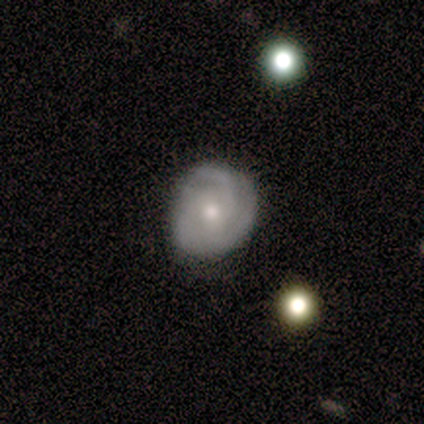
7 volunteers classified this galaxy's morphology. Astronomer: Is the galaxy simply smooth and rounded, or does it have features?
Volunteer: smooth — 57% (runner-up: featured or disk, 43%).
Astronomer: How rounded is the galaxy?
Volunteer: round — 75%.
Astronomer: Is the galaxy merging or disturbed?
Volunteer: none — 57% (runner-up: minor disturbance, 43%).